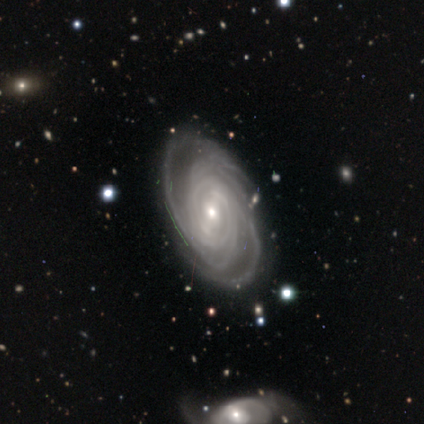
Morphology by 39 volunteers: Q: Smooth or featured?
A: featured or disk (95%); runner-up: smooth (5%)
Q: Edge-on disk?
A: no (95%); runner-up: yes (5%)
Q: Bar?
A: weak (57%); runner-up: strong (26%)
Q: Spiral arms?
A: yes (100%)
Q: Spiral winding?
A: tight (80%); runner-up: medium (20%)
Q: Spiral arm count?
A: can't tell (34%); runner-up: more than 4 (31%)
Q: Bulge size?
A: small (63%); runner-up: moderate (34%)
Q: Merging?
A: none (79%); runner-up: minor disturbance (13%)